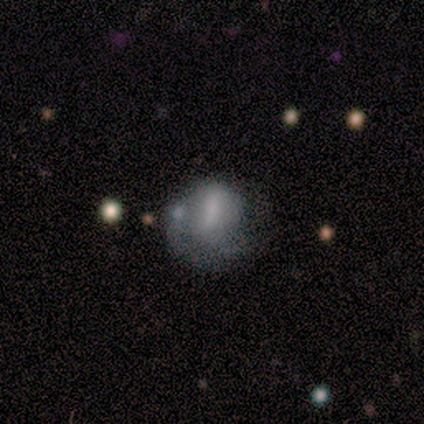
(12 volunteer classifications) Morphology: type=smooth (50%); roundness=round (83%); merging=major disturbance (36%).